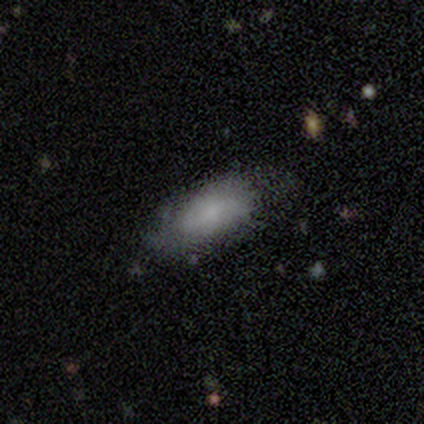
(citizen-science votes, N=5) smooth_or_featured: smooth (p=0.80) [alt: featured or disk p=0.20]
how_rounded: in between (p=0.75) [alt: cigar-shaped p=0.25]
merging: none (p=0.80) [alt: major disturbance p=0.20]